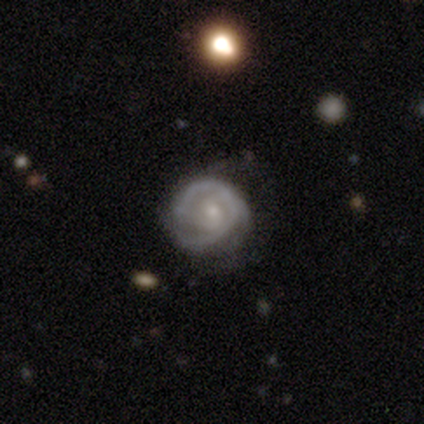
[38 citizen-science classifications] Morphology: type=featured or disk (84%); edge-on=no (100%); bar=no (75%); spiral arms=yes (81%); winding=tight (54%); arm count=2 (50%); bulge=small (69%); merging=none (56%).